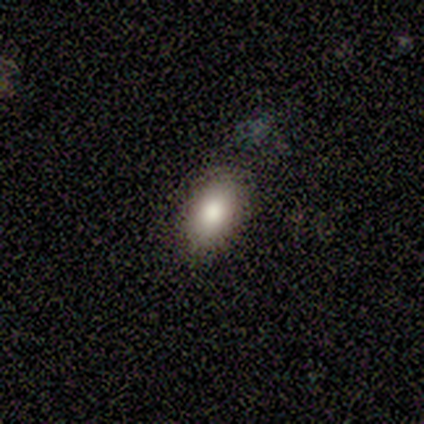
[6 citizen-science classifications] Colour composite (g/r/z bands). It shows a smooth galaxy with no disk features (83%) that is in between round and cigar-shaped (80%). Merging: none (83%).